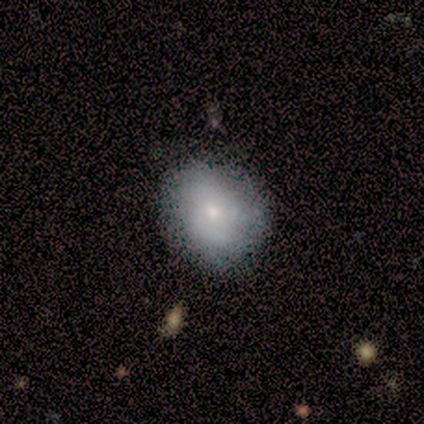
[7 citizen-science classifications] A smooth galaxy with no disk features (57%) that is round (50%, tied with in between). Merging: none (80%).